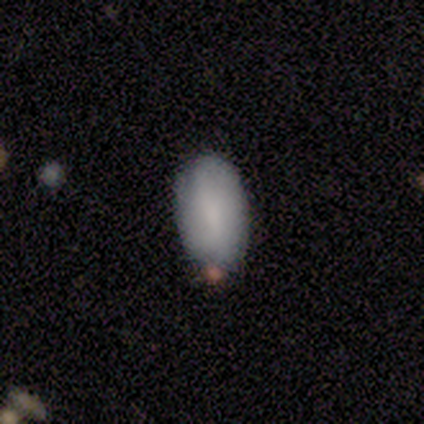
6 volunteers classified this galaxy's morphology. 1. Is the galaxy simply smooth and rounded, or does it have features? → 83% smooth, 17% star or artifact, 0% featured or disk.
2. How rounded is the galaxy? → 100% in between, 0% round, 0% cigar-shaped.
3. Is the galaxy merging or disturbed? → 60% none, 40% minor disturbance, 0% major disturbance, 0% merger.